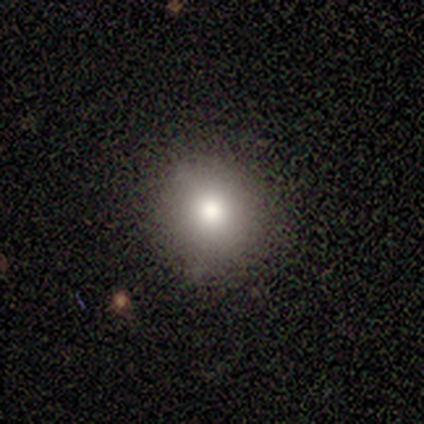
smooth 75%, featured or disk 25%, star or artifact 0%. Down the decision tree: how rounded — round (100%); merging — none (100%).